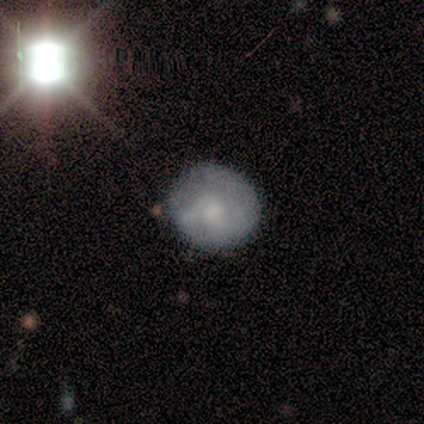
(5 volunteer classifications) Smooth or featured?
  - smooth: 80% *
  - featured or disk: 20%
  - star or artifact: 0%
How rounded?
  - round: 100% *
  - in between: 0%
  - cigar-shaped: 0%
Merging?
  - none: 80% *
  - minor disturbance: 20%
  - major disturbance: 0%
  - merger: 0%